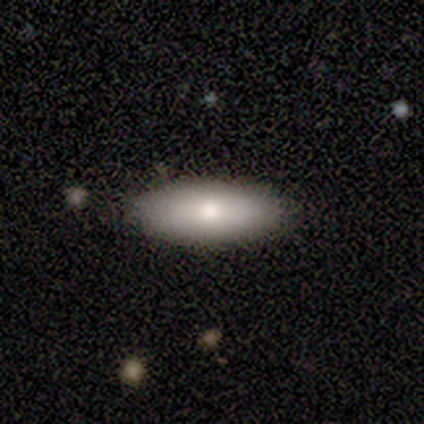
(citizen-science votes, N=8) A smooth galaxy with no disk features (75%) that is in between round and cigar-shaped (67%). Merging: none (88%).